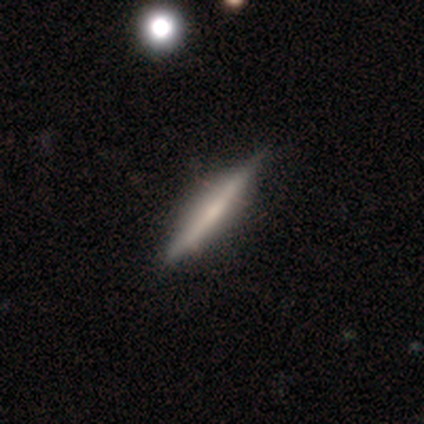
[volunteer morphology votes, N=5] Smooth or featured? smooth (80%)
How rounded? cigar-shaped (100%)
Merging? none (80%)